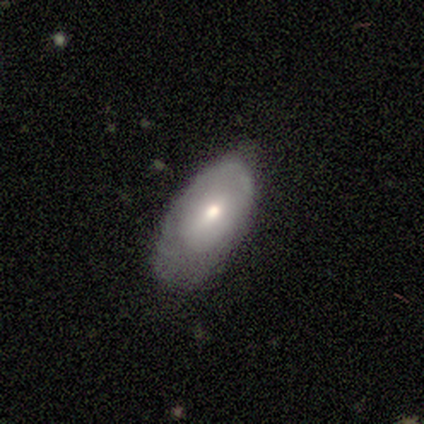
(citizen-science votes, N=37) Smooth or featured? 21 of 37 (57%) said smooth. How rounded? 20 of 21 (95%) said in between. Merging? 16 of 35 (46%) said minor disturbance.